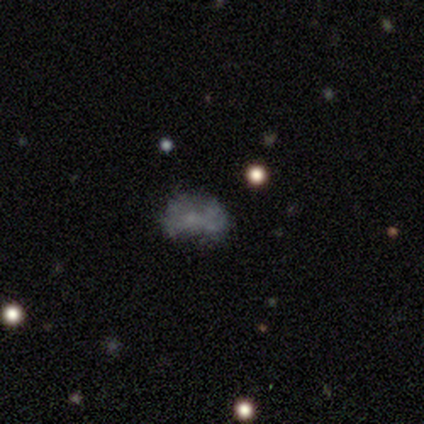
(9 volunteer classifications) This appears to be a smooth galaxy with no disk features (44%) that is in between round and cigar-shaped (50%). Merging: none (71%).